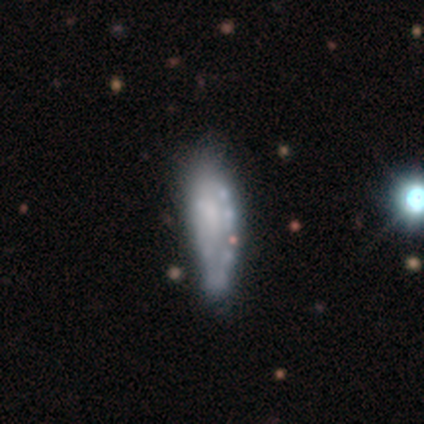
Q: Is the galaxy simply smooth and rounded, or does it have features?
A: smooth — 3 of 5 (60%).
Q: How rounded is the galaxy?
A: in between — 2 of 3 (67%).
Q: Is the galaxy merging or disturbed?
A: minor disturbance — 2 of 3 (67%).